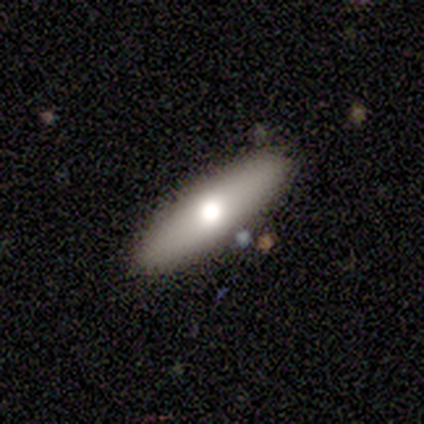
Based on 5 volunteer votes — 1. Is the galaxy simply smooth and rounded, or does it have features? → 100% smooth, 0% featured or disk, 0% star or artifact.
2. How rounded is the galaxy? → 60% in between, 40% cigar-shaped, 0% round.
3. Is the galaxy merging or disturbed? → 100% none, 0% minor disturbance, 0% major disturbance, 0% merger.